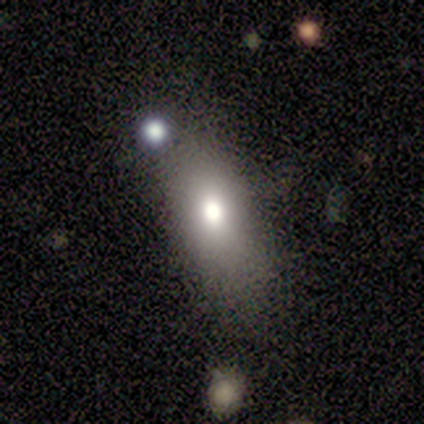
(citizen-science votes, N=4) A smooth galaxy with no disk features (75%) that is in between round and cigar-shaped (100%).

Vote fractions:
- Smooth or featured? smooth: 75% / featured or disk: 25% / star or artifact: 0%
- How rounded? in between: 100% / round: 0% / cigar-shaped: 0%
- Merging? none: 100% / minor disturbance: 0% / major disturbance: 0% / merger: 0%